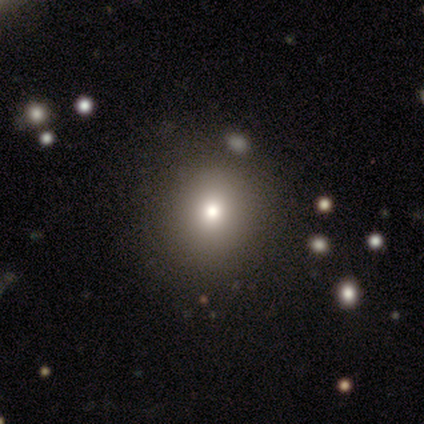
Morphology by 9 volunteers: A smooth galaxy with no disk features (56%) that is round (100%).

Vote fractions:
- Smooth or featured? smooth: 56% / star or artifact: 44% / featured or disk: 0%
- How rounded? round: 100% / in between: 0% / cigar-shaped: 0%
- Merging? none: 100% / minor disturbance: 0% / major disturbance: 0% / merger: 0%